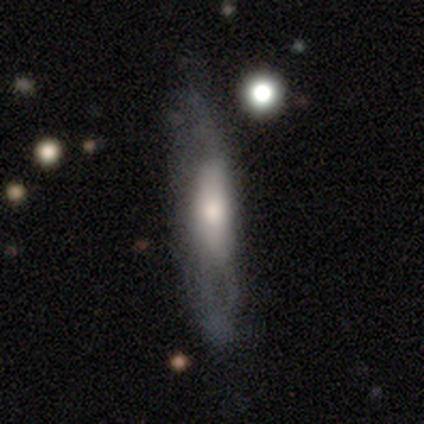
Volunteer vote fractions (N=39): Volunteers were most divided on "merging": minor disturbance: 30%, none: 24%, major disturbance: 8%, merger: 8%. More confident: smooth or featured — featured or disk (74%); edge-on bulge — rounded (69%); edge-on disk — yes (55%).